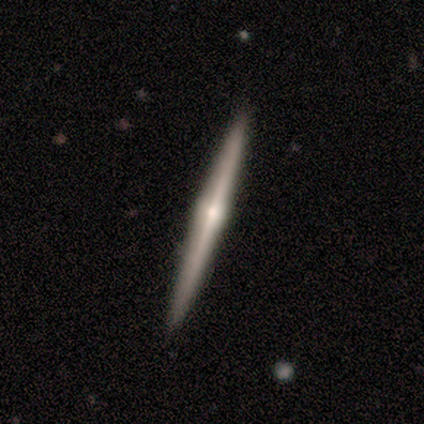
featured or disk 79%, smooth 21%, star or artifact 0%. Down the decision tree: edge-on disk — yes (100%); edge-on bulge — rounded (90%); merging — none (97%).